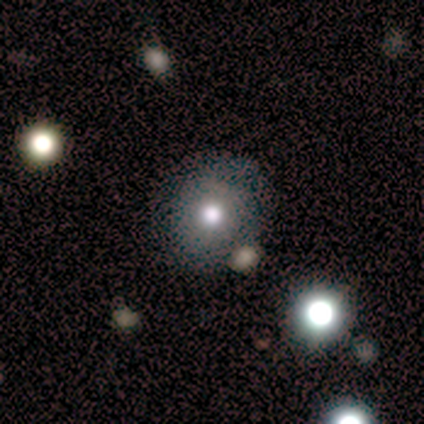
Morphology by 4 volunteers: smooth-or-featured: smooth: 75% | star or artifact: 25% | featured or disk: 0%
  how-rounded: round: 67% | in between: 33% | cigar-shaped: 0%
  merging: minor disturbance: 67% | merger: 33% | none: 0% | major disturbance: 0%